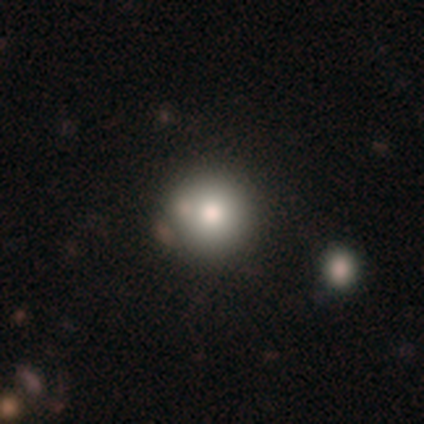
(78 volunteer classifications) Q: Smooth or featured?
A: smooth (82%); runner-up: star or artifact (12%)
Q: How rounded?
A: round (100%)
Q: Merging?
A: none (42%); runner-up: merger (12%)